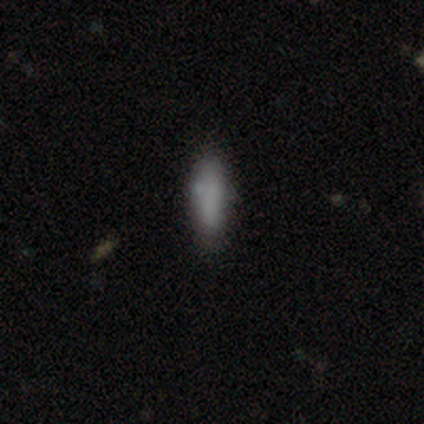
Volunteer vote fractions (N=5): smooth_or_featured: smooth (p=1.00)
how_rounded: in between (p=0.60) [alt: cigar-shaped p=0.40]
merging: none (p=0.60) [alt: minor disturbance p=0.40]